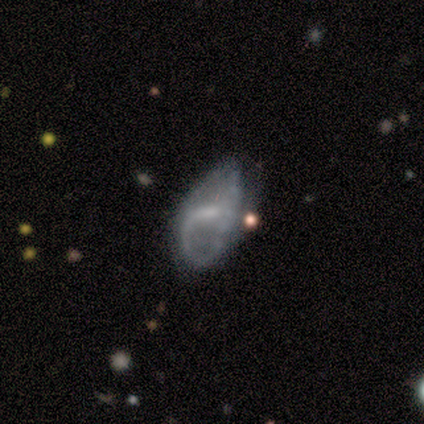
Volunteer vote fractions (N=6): Smooth or featured: featured or disk — 83% (smooth — 17%)
Edge-on disk: no — 100%
Bar: strong — 40% (tied with no — 40%)
Spiral arms: no — 80% (yes — 20%)
Bulge size: small — 80% (moderate — 20%)
Merging: none — 33% (tied with minor disturbance — 33%)